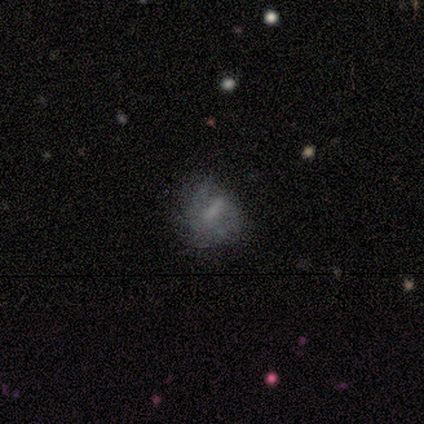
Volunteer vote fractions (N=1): featured or disk 100%, smooth 0%, star or artifact 0%. Down the decision tree: edge-on disk — no (100%); bar — weak (100%); spiral arms — yes (100%); spiral arm count — can't tell (100%); spiral winding — medium (100%); bulge size — none (100%); merging — minor disturbance (100%).